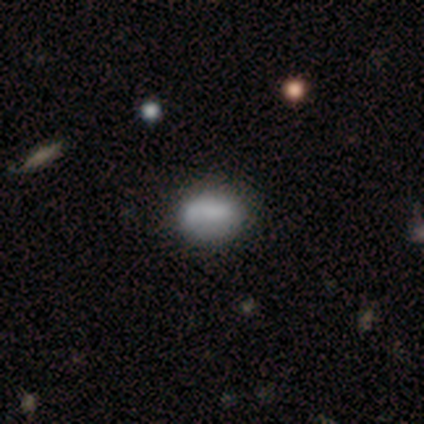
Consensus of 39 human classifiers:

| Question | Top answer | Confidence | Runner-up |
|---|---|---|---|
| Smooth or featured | smooth | 74% | featured or disk (23%) |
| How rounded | in between | 79% | round (17%) |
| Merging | none | 66% | minor disturbance (26%) |